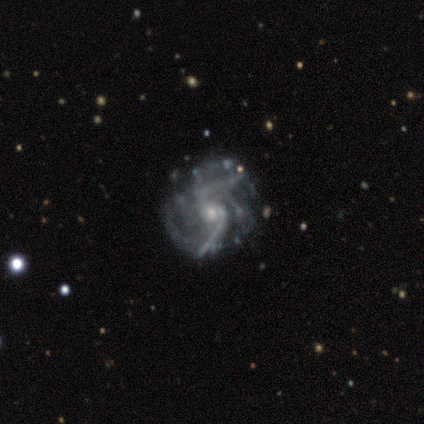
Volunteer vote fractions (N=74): This is clearly a featured or disk galaxy (96%). It is clearly not viewed edge-on (99%). Bar: likely no (73%). Spiral arm pattern: clearly yes (96%). Spiral arm count: marginally can't tell (36%). Spiral winding: marginally medium (36%, tied with loose). Central bulge: likely small (71%). Merging: marginally none (28%).